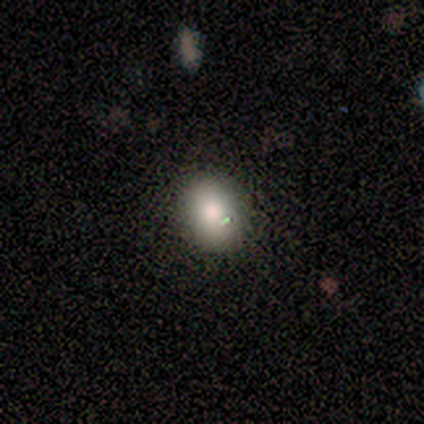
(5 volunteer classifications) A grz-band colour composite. It shows a smooth galaxy with no disk features (60%) that is in between round and cigar-shaped (67%). Merging: none (75%).